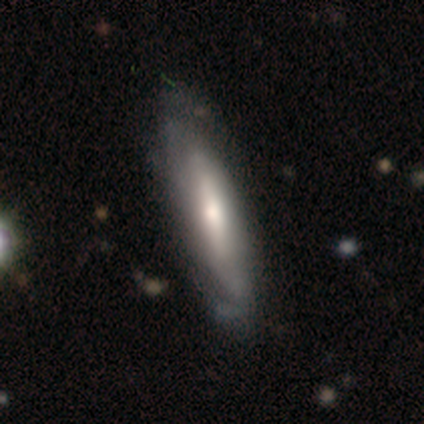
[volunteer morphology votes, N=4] This is possibly a smooth galaxy (50%, tied with featured or disk). How rounded: clearly cigar-shaped (100%). Merging: possibly none (50%, tied with minor disturbance).